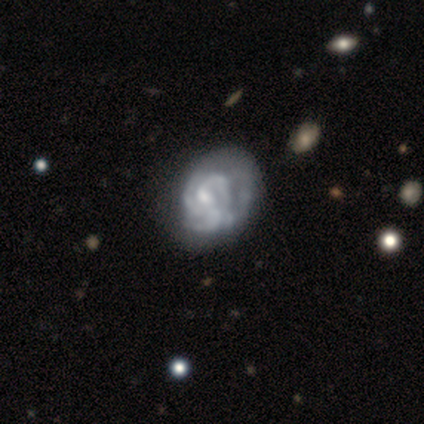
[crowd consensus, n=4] Overall: featured or disk (50%; smooth 25%). Edge-on disk: no (100%). Bar: weak (50%, tied with no). Spiral arms: no (100%). Bulge size: small (100%). Merging: minor disturbance (67%; none 33%).